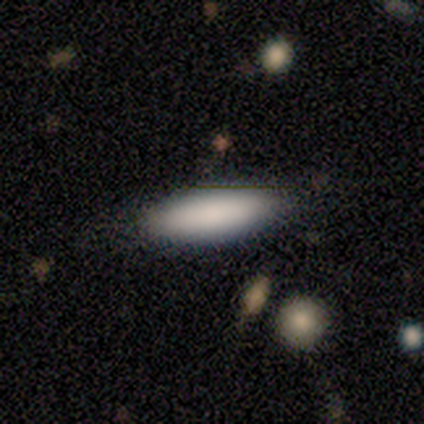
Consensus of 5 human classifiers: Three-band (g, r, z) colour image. It shows a smooth galaxy with no disk features (80%) that is in between round and cigar-shaped (50%, tied with cigar-shaped). Merging: none (100%).